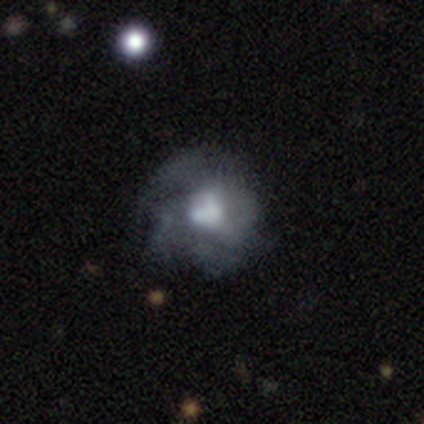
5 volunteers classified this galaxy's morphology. featured or disk 100%, smooth 0%, star or artifact 0%. Down the decision tree: edge-on disk — no (100%); bar — no (100%); spiral arms — yes (60%); spiral arm count — can't tell (67%); spiral winding — tight (33%, tied with medium and loose); bulge size — moderate (60%); merging — none (60%).